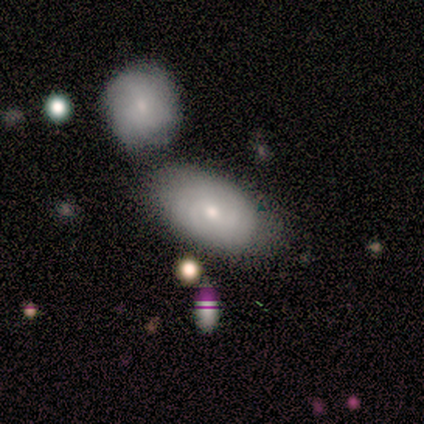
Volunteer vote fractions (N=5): Overall: smooth (100%). How rounded: in between (100%). Merging: none (40%, tied with minor disturbance).